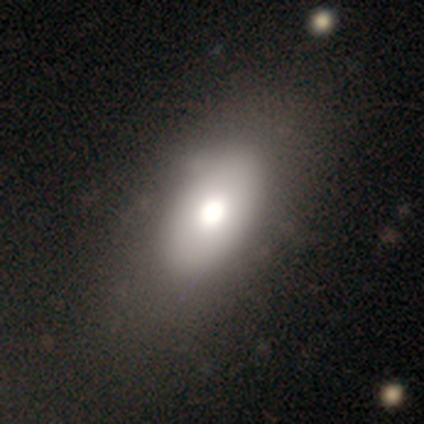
Smooth or featured? smooth (67%)
How rounded? in between (100%)
Merging? none (100%)